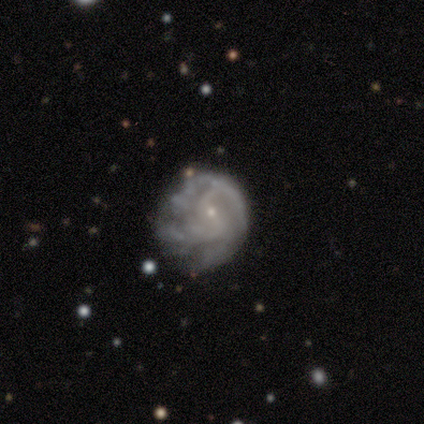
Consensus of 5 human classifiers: Morphology: type=featured or disk (60%); edge-on=no (100%); bar=no (67%); spiral arms=yes (100%); winding=tight (67%); arm count=2 (33%, tied with 3 and can't tell); bulge=small (100%); merging=none (67%).